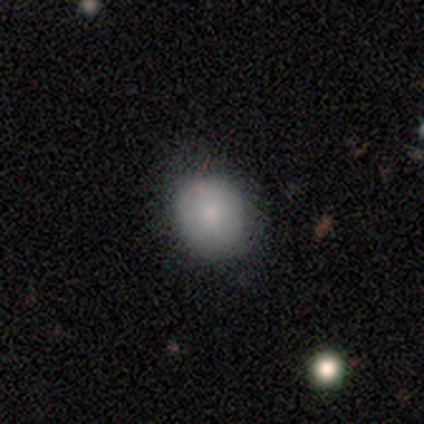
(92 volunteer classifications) Volunteers were most divided on "merging": none: 73%, minor disturbance: 23%, major disturbance: 2%, merger: 1%. More confident: how rounded — round (78%); smooth or featured — smooth (74%).